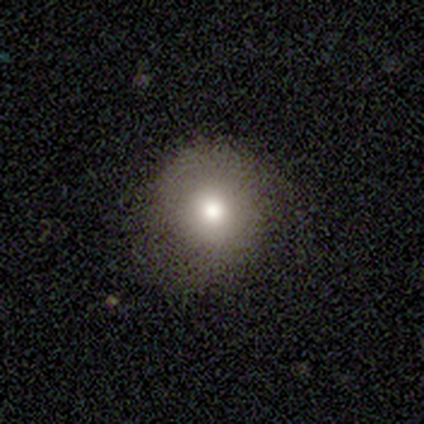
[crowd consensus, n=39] Smooth or featured: smooth — 72% (featured or disk — 18%)
How rounded: round — 93% (in between — 7%)
Merging: none — 74% (major disturbance — 14%)